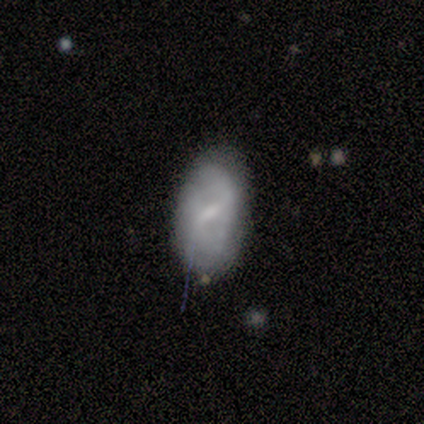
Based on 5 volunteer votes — featured or disk 60%, smooth 20%, star or artifact 20%. Down the decision tree: edge-on disk — no (100%); bar — weak (100%); spiral arms — no (67%); bulge size — moderate (33%, tied with small and none); merging — none (75%).